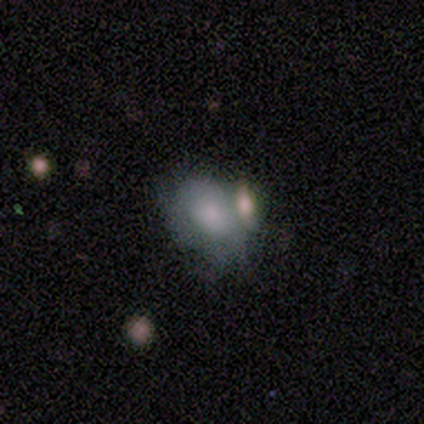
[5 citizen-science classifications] A smooth galaxy with no disk features (100%) that is in between round and cigar-shaped (80%).

Vote fractions:
- Smooth or featured? smooth: 100% / featured or disk: 0% / star or artifact: 0%
- How rounded? in between: 80% / round: 20% / cigar-shaped: 0%
- Merging? none: 60% / merger: 40% / minor disturbance: 0% / major disturbance: 0%